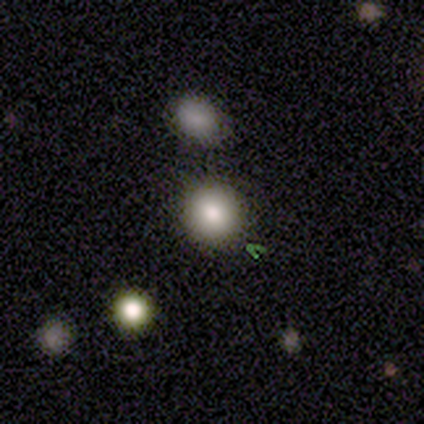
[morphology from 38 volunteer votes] A smooth galaxy with no disk features (76%) that is round (90%). Merging: none (94%).